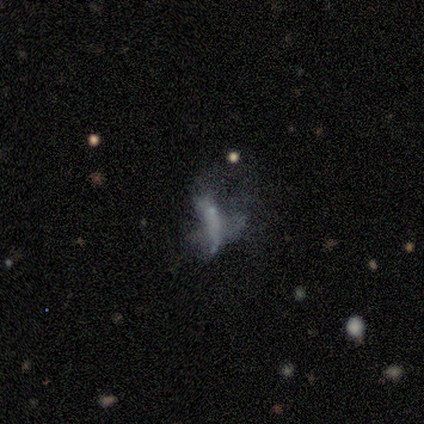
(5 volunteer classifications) Overall: featured or disk (100%). Edge-on disk: no (100%). Bar: no (100%). Spiral arms: no (80%). Bulge size: none (100%). Merging: major disturbance (60%; none 40%).